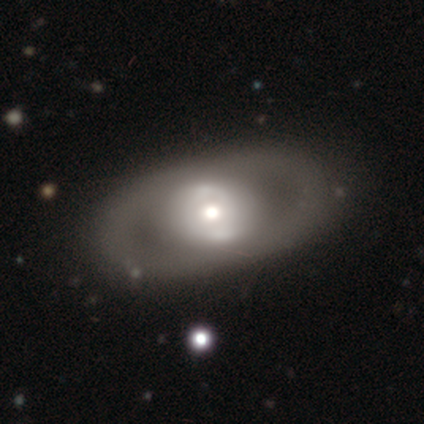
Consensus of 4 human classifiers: A featured or disk galaxy (75%) with a strong bar (67%), no spiral arms (67%) and a moderate central bulge (67%). Merging: none (75%).